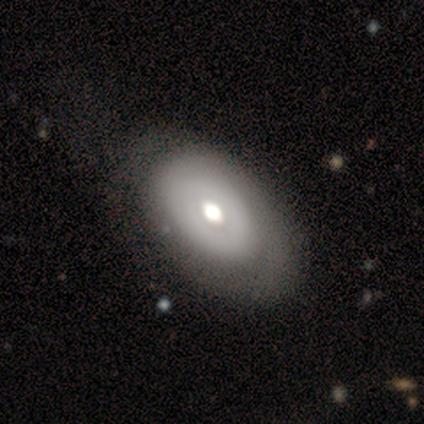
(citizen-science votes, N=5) Overall: featured or disk (80%). Edge-on disk: no (75%). Bar: no (100%). Spiral arms: yes (67%; no 33%). Spiral arm count: can't tell (100%). Spiral winding: tight (100%). Bulge size: moderate (67%; large 33%). Merging: minor disturbance (75%).